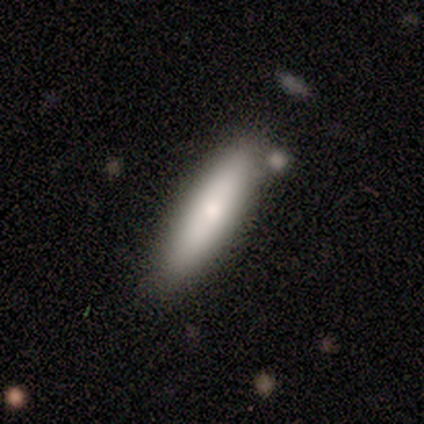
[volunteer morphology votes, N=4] smooth_or_featured: smooth (p=0.75) [alt: star or artifact p=0.25]
how_rounded: cigar-shaped (p=1.00)
merging: none (p=1.00)